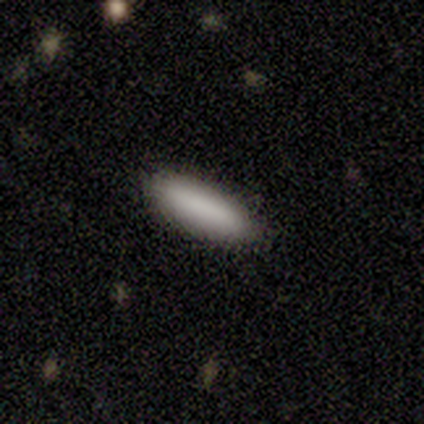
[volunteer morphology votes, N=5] type=smooth (100%); roundness=cigar-shaped (80%); merging=none (80%).